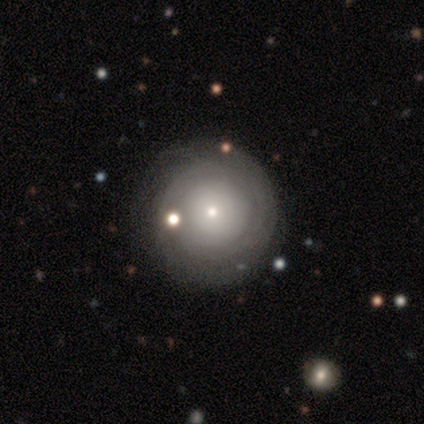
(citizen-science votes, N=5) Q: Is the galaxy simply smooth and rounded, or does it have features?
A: featured or disk — 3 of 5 (60%).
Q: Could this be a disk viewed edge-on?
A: no — 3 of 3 (100%).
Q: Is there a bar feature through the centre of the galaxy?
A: no — 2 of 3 (67%).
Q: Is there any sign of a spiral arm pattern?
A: yes — 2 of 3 (67%).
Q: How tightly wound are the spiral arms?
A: tight — 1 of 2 (50%, tied with medium).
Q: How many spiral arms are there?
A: can't tell — 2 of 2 (100%).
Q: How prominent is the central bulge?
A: small — 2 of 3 (67%).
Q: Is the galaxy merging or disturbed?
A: none — 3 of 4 (75%).